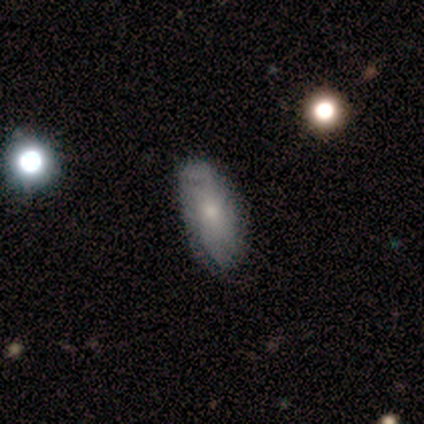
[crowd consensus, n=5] Overall: smooth (80%). How rounded: in between (50%, tied with cigar-shaped). Merging: none (100%).